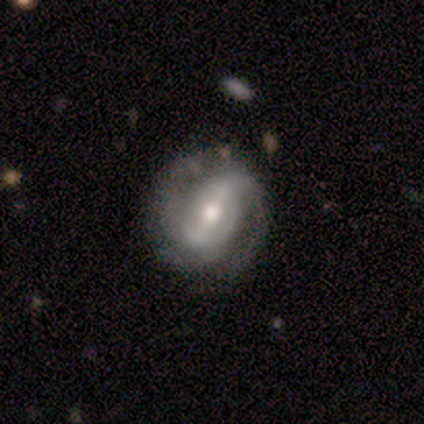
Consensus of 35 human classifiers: This is clearly a featured or disk galaxy (91%). It is clearly not viewed edge-on (91%). Bar: possibly strong (59%). Spiral arm pattern: clearly yes (97%). Spiral arm count: clearly 2 (82%). Spiral winding: possibly tight (54%). Central bulge: likely moderate (66%). Merging: clearly none (91%).